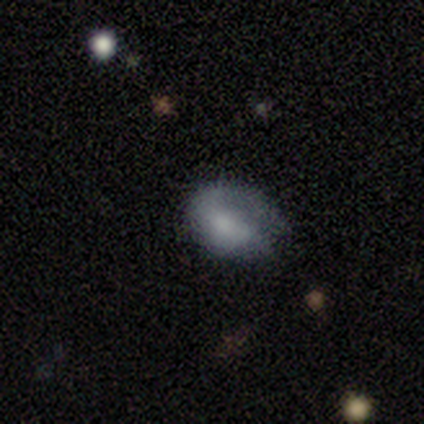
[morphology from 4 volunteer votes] Volunteers were most divided on "bar" (3-way tie): strong: 33%, weak: 33%, no: 33%. More confident: edge-on disk — no (100%); smooth or featured — featured or disk (75%); spiral arms — no (67%); bulge size — none (67%); merging — minor disturbance (50%).